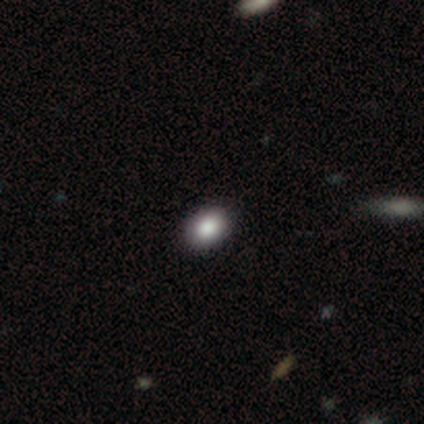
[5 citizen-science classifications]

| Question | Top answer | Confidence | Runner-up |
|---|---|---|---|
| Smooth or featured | smooth | 80% | featured or disk (20%) |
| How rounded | round | 50% | tied: in between (50%) |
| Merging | none | 100% | — |